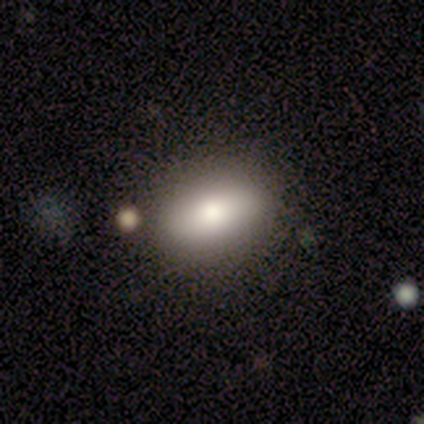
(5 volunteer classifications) Q: Smooth or featured?
A: smooth (80%); runner-up: featured or disk (20%)
Q: How rounded?
A: in between (100%)
Q: Merging?
A: none (100%)